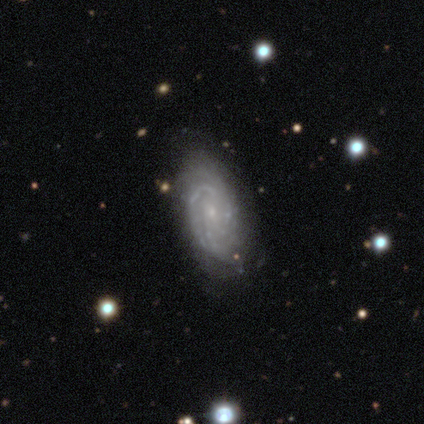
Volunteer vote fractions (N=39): Smooth or featured: featured or disk — 92% (smooth — 8%)
Edge-on disk: no — 100%
Bar: no — 75% (weak — 25%)
Spiral arms: yes — 94% (no — 6%)
Spiral winding: tight — 68% (medium — 29%)
Spiral arm count: 3 — 35% (tied with can't tell — 35%)
Bulge size: small — 81% (moderate — 11%)
Merging: none — 49% (major disturbance — 8%)